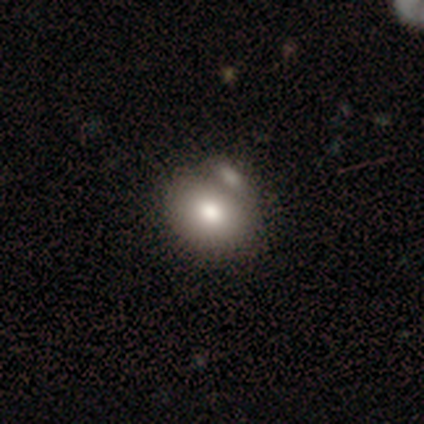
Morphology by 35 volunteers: A smooth galaxy with no disk features (97%) that is in between round and cigar-shaped (62%). Merging: merger (68%).